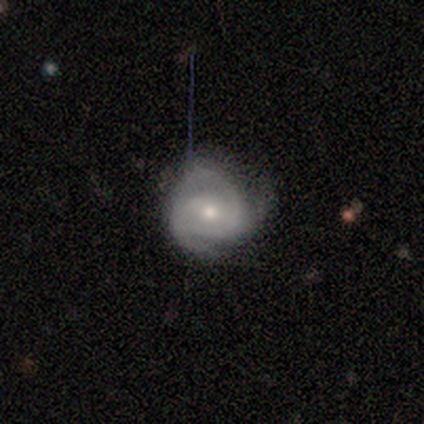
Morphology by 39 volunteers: This appears to be a featured or disk galaxy (87%) with a weak bar (45%, tied with no), 2 (62%) medium (52%) spiral arms (88%) and a moderate central bulge (58%). Merging: none (68%).